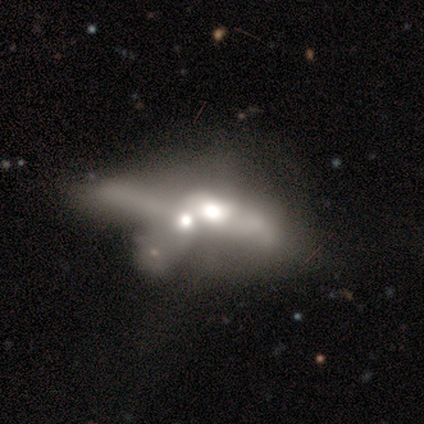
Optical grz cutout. It shows a smooth galaxy with no disk features (50%, tied with featured or disk) that is round (50%, tied with in between). Merging: merger (50%).